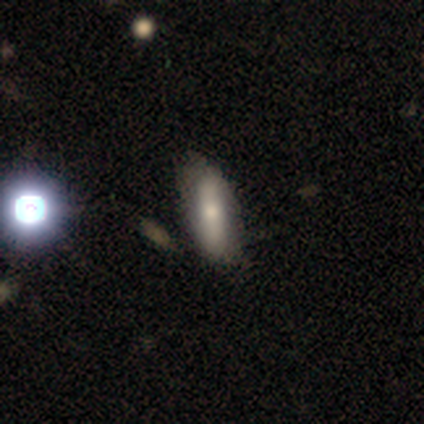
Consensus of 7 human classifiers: smooth 43%, featured or disk 29%, star or artifact 29%. Down the decision tree: how rounded — cigar-shaped (67%); merging — minor disturbance (60%).